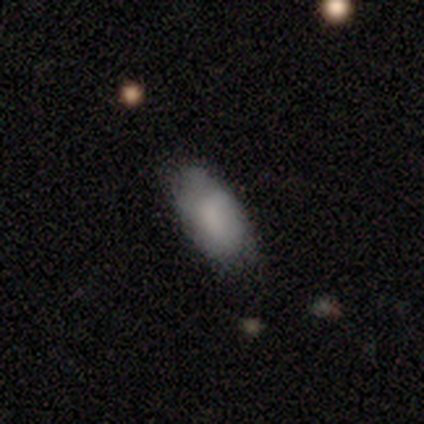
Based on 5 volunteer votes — smooth 100%, featured or disk 0%, star or artifact 0%. Down the decision tree: how rounded — in between (100%); merging — none (60%).